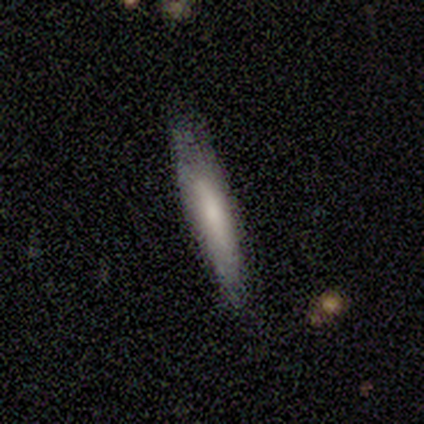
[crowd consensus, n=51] This appears to be a smooth galaxy with no disk features (55%) that is cigar-shaped (82%). Merging: none (61%).